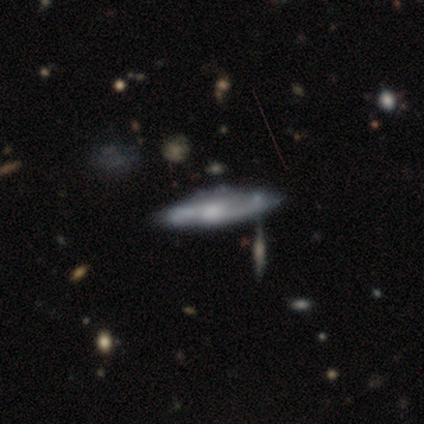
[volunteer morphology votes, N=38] type=featured or disk (82%); edge-on=no (65%); bar=no (70%); spiral arms=yes (75%); winding=medium (47%); arm count=2 (73%); bulge=moderate (45%); merging=none (51%).